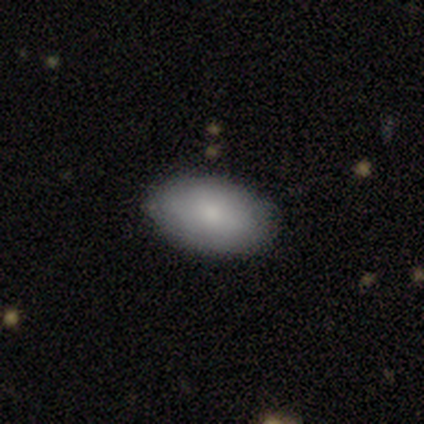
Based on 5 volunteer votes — Q: Smooth or featured?
A: smooth (60%); runner-up: featured or disk (40%)
Q: How rounded?
A: in between (100%)
Q: Merging?
A: none (100%)